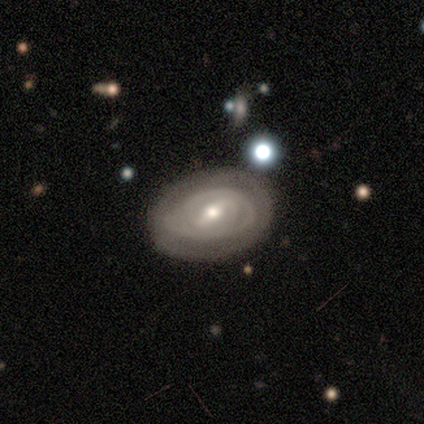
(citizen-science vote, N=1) Smooth or featured? 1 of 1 (100%) said featured or disk. Edge-on disk? 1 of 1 (100%) said no. Bar? 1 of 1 (100%) said weak. Spiral arms? 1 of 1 (100%) said yes. Spiral winding? 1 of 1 (100%) said tight. Spiral arm count? 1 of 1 (100%) said can't tell. Bulge size? 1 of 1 (100%) said small. Merging? 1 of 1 (100%) said none.